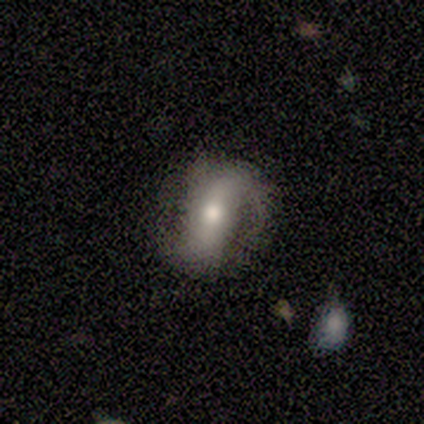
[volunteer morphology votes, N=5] Smooth or featured? 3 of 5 (60%) said smooth. How rounded? 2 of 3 (67%) said in between. Merging? 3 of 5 (60%) said none.